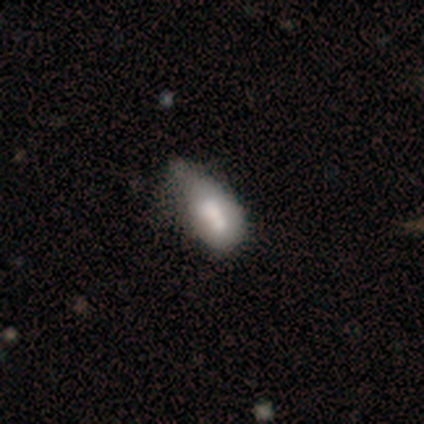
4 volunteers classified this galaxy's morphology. Volunteers were most divided on "smooth or featured": smooth: 50%, featured or disk: 25%, star or artifact: 25%. More confident: how rounded — in between (100%); merging — minor disturbance (67%).